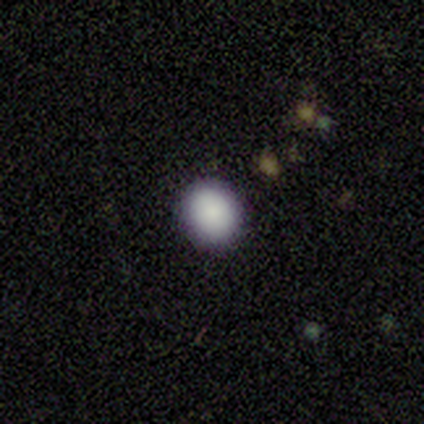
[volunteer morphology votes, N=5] A smooth galaxy with no disk features (100%) that is round (80%). Merging: none (100%).